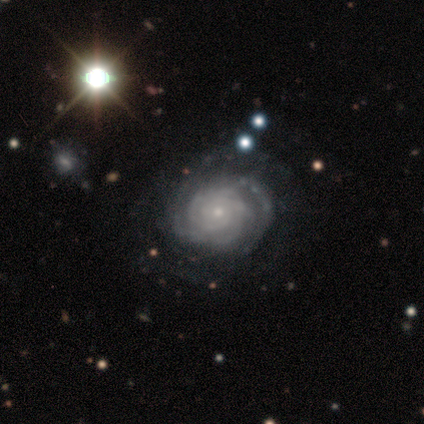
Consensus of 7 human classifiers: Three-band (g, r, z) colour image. It shows a featured or disk galaxy (86%) with no bar (83%), 4 (50%) tight (100%) spiral arms (100%) and a small central bulge (83%). Merging: none (67%).